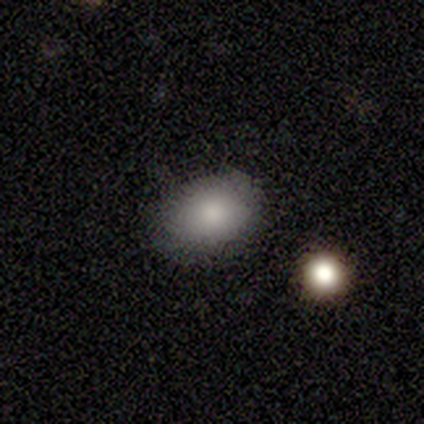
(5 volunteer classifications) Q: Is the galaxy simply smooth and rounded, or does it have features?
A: smooth — 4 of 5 (80%).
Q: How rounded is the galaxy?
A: in between — 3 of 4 (75%).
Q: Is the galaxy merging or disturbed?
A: none — 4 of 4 (100%).